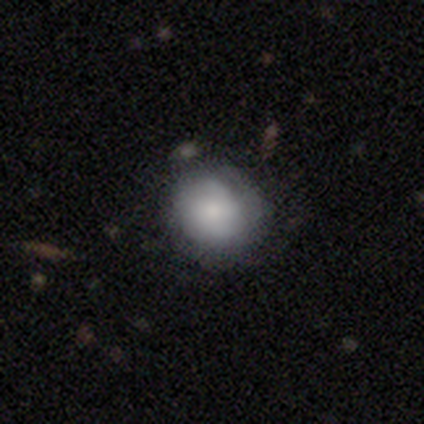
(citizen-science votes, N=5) Smooth or featured? 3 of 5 (60%) said smooth. How rounded? 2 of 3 (67%) said round. Merging? 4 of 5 (80%) said none.